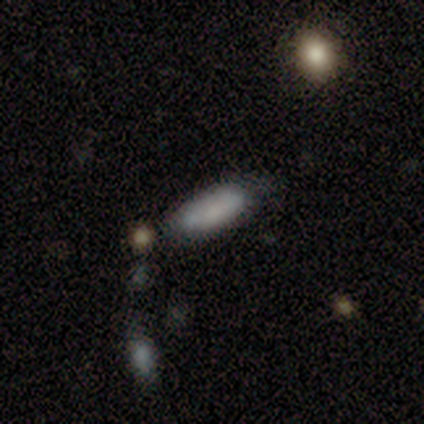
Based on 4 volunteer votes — Smooth or featured?
  - smooth: 100% *
  - featured or disk: 0%
  - star or artifact: 0%
How rounded?
  - in between: 50% * (tied)
  - cigar-shaped: 50% * (tied)
  - round: 0%
Merging?
  - none: 50% *
  - minor disturbance: 25%
  - merger: 25%
  - major disturbance: 0%